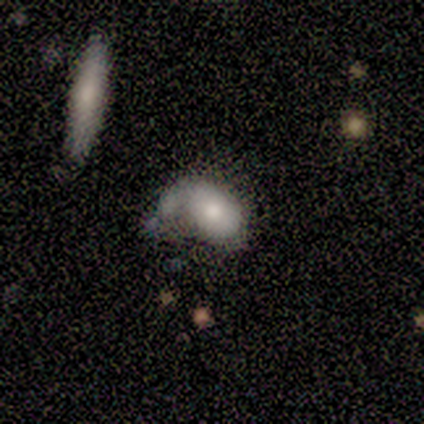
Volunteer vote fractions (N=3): Q: Smooth or featured?
A: smooth (67%); runner-up: featured or disk (33%)
Q: How rounded?
A: in between (100%)
Q: Merging?
A: major disturbance (67%); runner-up: minor disturbance (33%)